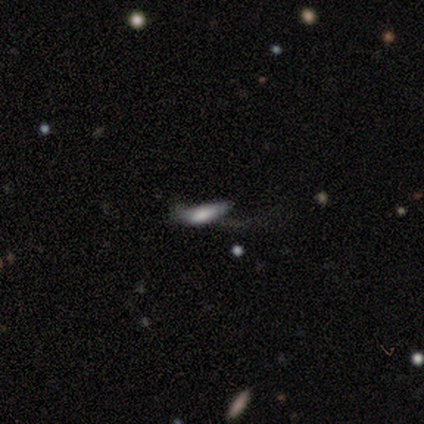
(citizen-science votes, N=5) smooth_or_featured: smooth (p=0.40) [tied with: star or artifact p=0.40]
how_rounded: in between (p=0.50) [tied with: cigar-shaped p=0.50]
merging: major disturbance (p=1.00)